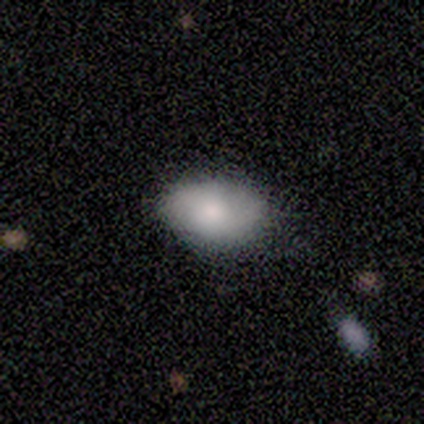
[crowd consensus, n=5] This is likely a smooth galaxy (60%). How rounded: clearly in between (100%). Merging: likely minor disturbance (67%).